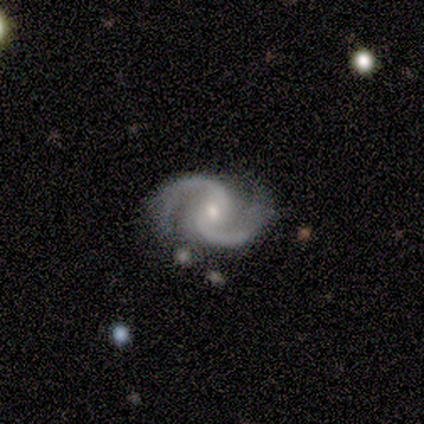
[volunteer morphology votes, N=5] This appears to be a featured or disk galaxy (100%) with a weak bar (60%), 2 (100%) loose (60%) spiral arms (100%) and a small central bulge (60%). Merging: none (80%).